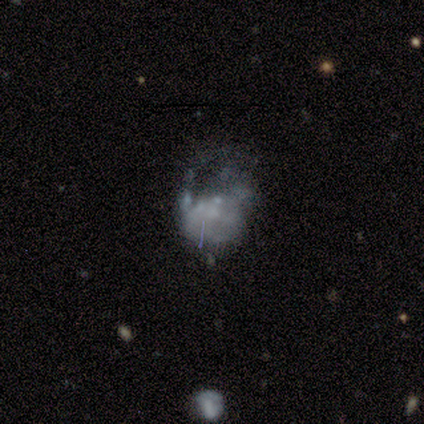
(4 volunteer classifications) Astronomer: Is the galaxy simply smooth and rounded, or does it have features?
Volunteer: featured or disk — 75%.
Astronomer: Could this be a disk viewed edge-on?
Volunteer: no — 100%.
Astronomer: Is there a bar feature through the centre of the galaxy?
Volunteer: no — 100%.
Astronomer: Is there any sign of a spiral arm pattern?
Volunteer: no — 100%.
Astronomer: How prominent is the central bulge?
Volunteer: none — 100%.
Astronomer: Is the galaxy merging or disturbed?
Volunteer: major disturbance — 75%.